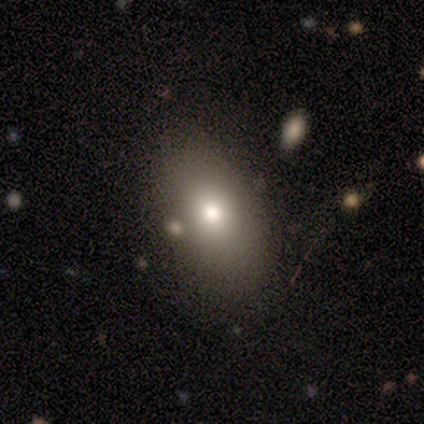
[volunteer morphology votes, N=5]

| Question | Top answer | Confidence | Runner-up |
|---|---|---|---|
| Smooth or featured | smooth | 100% | — |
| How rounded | in between | 80% | round (20%) |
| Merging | none | 100% | — |